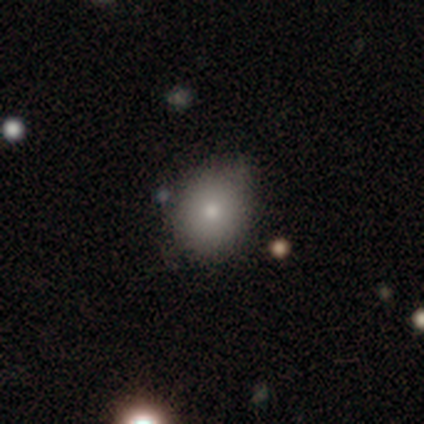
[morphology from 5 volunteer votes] Overall: smooth (60%; featured or disk 20%). How rounded: in between (67%; round 33%). Merging: none (100%).